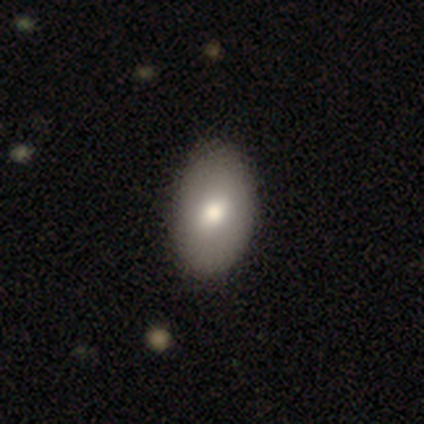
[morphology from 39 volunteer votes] This is clearly a smooth galaxy (82%). How rounded: clearly in between (94%). Merging: likely none (65%).